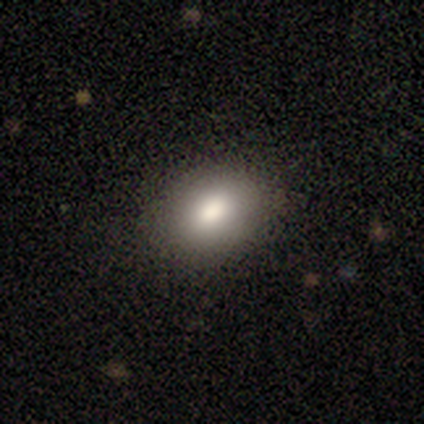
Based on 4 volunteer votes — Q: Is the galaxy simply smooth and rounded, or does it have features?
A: smooth — 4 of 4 (100%).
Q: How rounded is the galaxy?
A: round — 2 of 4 (50%, tied with in between).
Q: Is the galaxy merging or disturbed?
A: none — 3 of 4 (75%).